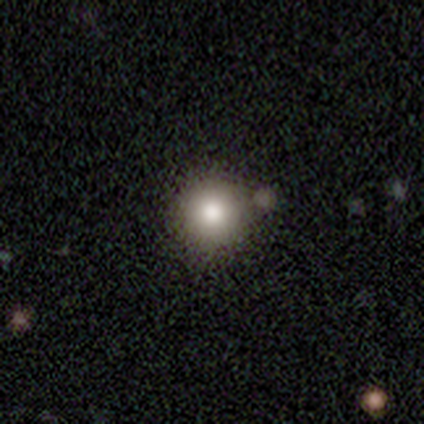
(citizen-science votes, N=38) Morphology: type=smooth (84%); roundness=round (100%); merging=none (79%).